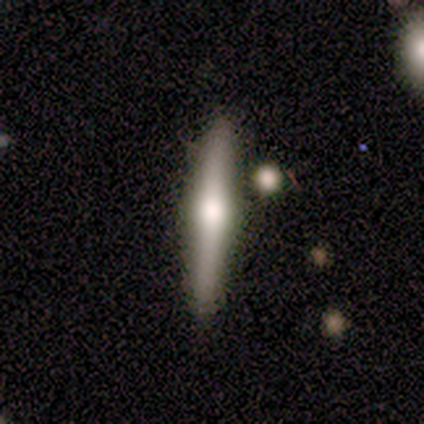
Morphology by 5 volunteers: A featured or disk galaxy (80%) viewed edge-on (100%) with a rounded central bulge (100%).

Vote fractions:
- Smooth or featured? featured or disk: 80% / smooth: 20% / star or artifact: 0%
- Edge-on disk? yes: 100% / no: 0%
- Edge-on bulge? rounded: 100% / boxy: 0% / none: 0%
- Merging? none: 80% / minor disturbance: 20% / major disturbance: 0% / merger: 0%